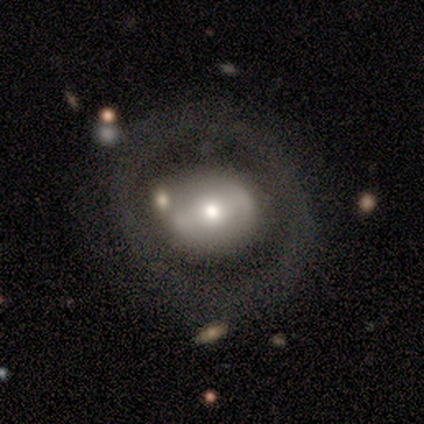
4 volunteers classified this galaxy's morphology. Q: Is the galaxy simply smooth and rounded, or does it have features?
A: smooth — 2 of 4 (50%, tied with featured or disk).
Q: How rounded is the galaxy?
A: round — 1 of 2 (50%, tied with in between).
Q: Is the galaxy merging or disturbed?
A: none — 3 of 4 (75%).